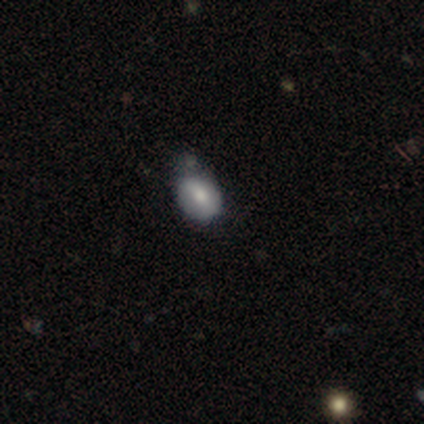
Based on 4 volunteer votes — Overall: smooth (100%). How rounded: in between (100%). Merging: none (50%; minor disturbance 25%).